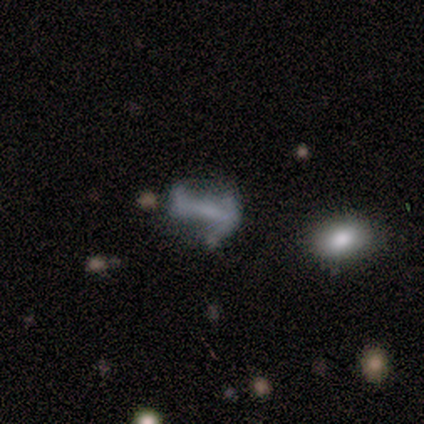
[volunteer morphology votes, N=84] This appears to be a featured or disk galaxy (65%) with a strong bar (56%), 2 (60%) loose (63%) spiral arms (60%) and no central bulge (62%). Merging: none (32%).